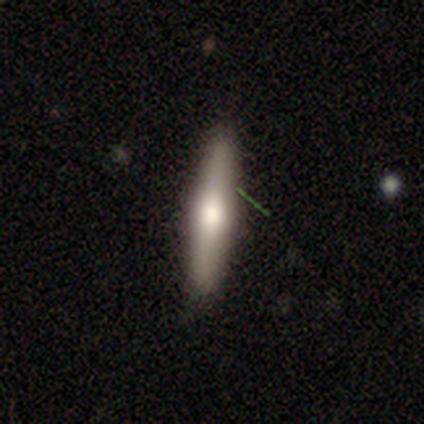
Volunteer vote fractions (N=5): A smooth galaxy with no disk features (60%) that is in between round and cigar-shaped (67%).

Vote fractions:
- Smooth or featured? smooth: 60% / featured or disk: 20% / star or artifact: 20%
- How rounded? in between: 67% / cigar-shaped: 33% / round: 0%
- Merging? none: 100% / minor disturbance: 0% / major disturbance: 0% / merger: 0%